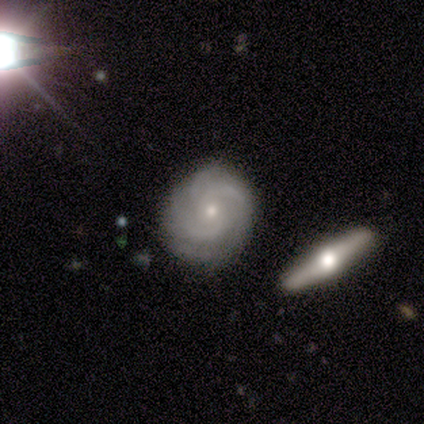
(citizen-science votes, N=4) Smooth or featured? 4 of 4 (100%) said featured or disk. Edge-on disk? 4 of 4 (100%) said no. Bar? 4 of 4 (100%) said no. Spiral arms? 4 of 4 (100%) said yes. Spiral winding? 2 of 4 (50%, tied with medium) said tight. Spiral arm count? 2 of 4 (50%) said can't tell. Bulge size? 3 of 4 (75%) said small. Merging? 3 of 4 (75%) said none.